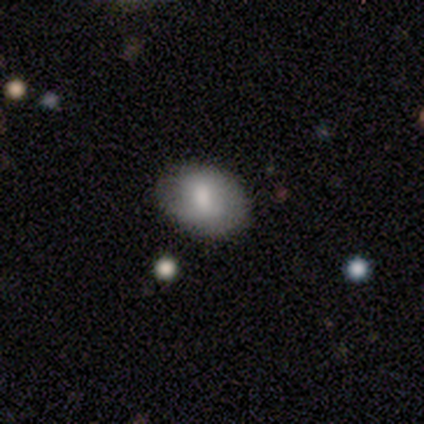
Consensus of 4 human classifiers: Smooth or featured? 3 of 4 (75%) said smooth. How rounded? 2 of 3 (67%) said round. Merging? 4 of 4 (100%) said none.